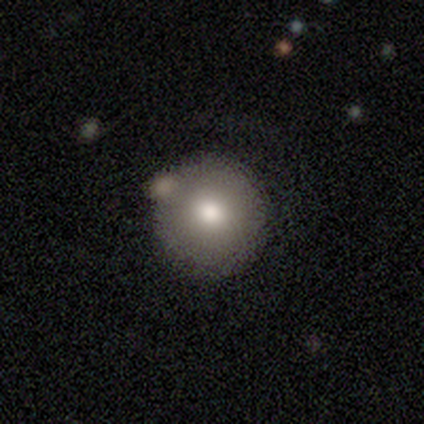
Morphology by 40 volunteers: This appears to be a smooth galaxy with no disk features (75%) that is round (100%). Merging: none (70%).